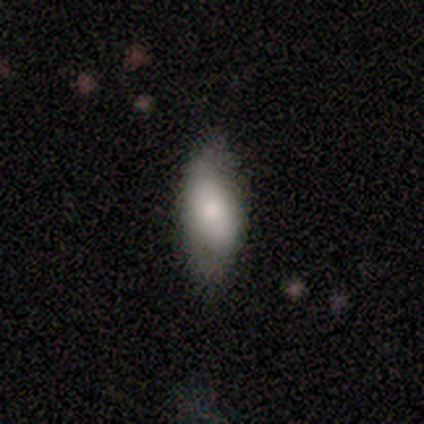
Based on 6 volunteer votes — A smooth galaxy with no disk features (83%) that is in between round and cigar-shaped (100%). Merging: none (50%, tied with minor disturbance).